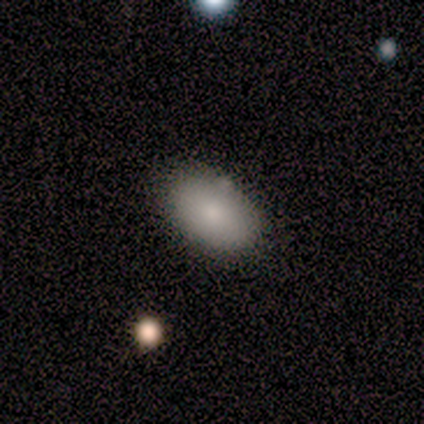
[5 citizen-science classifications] Smooth or featured? 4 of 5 (80%) said smooth. How rounded? 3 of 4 (75%) said in between. Merging? 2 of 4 (50%, tied with merger) said none.